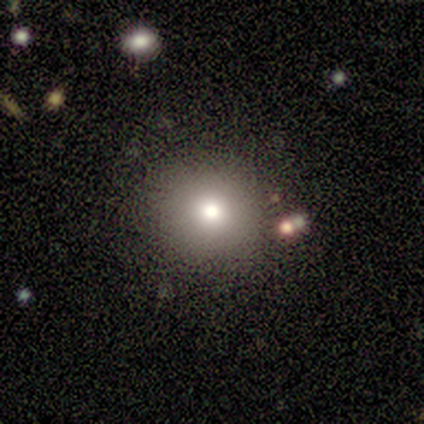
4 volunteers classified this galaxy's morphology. type=smooth (50%); roundness=round (100%); merging=none (100%).